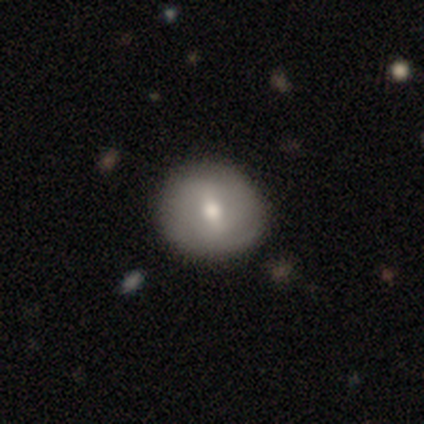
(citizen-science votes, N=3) This appears to be a featured or disk galaxy (67%) with a weak bar (100%), tight (100%) spiral arms (50%, tied with no) and a moderate central bulge (100%). Merging: none (100%).